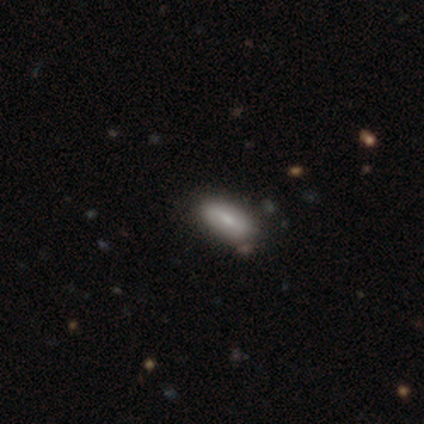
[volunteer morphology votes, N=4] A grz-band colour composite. It shows a smooth galaxy with no disk features (75%) that is in between round and cigar-shaped (100%). Merging: none (50%, tied with minor disturbance).